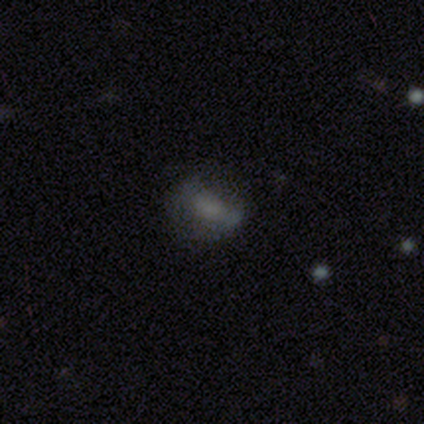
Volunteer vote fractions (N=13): smooth-or-featured: smooth: 62% | featured or disk: 31% | star or artifact: 8%
  how-rounded: in between: 75% | round: 25% | cigar-shaped: 0%
  merging: none: 67% | minor disturbance: 17% | major disturbance: 17% | merger: 0%